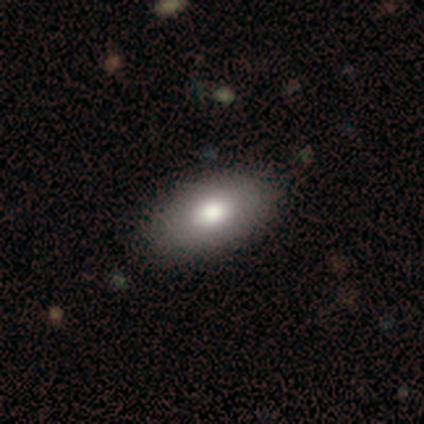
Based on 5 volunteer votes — Overall: smooth (80%). How rounded: in between (100%). Merging: none (80%).